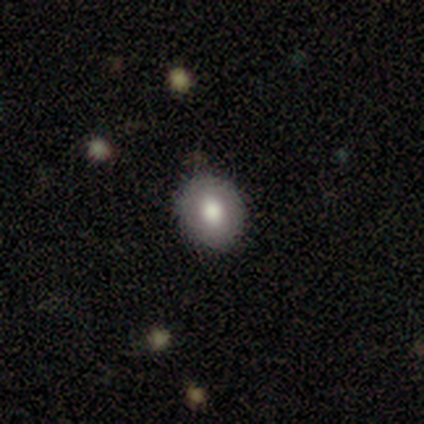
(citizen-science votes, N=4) Smooth or featured? 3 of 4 (75%) said smooth. How rounded? 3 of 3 (100%) said in between. Merging? 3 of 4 (75%) said none.